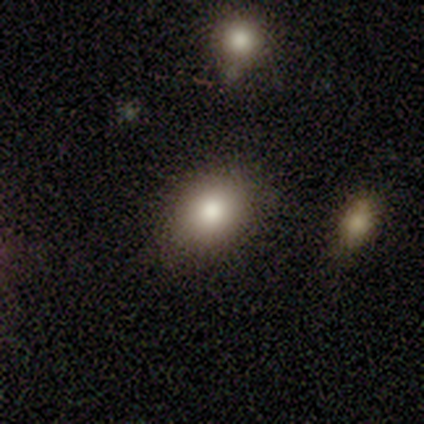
A smooth galaxy with no disk features (100%) that is round (80%). Merging: none (80%).